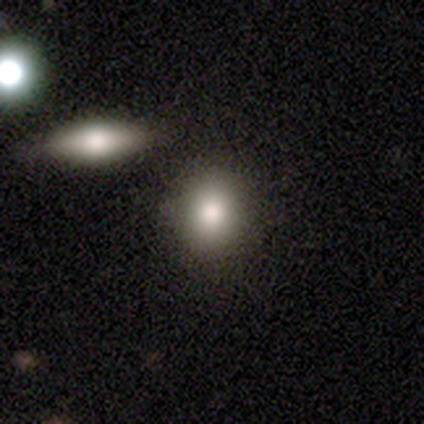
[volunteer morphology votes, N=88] Smooth or featured? 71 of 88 (81%) said smooth. How rounded? 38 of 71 (54%) said round. Merging? 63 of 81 (78%) said none.